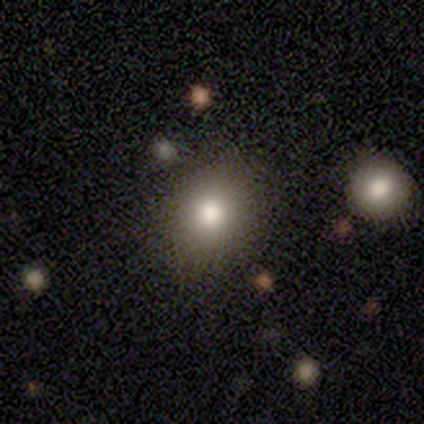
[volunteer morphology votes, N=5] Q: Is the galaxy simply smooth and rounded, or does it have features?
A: smooth — 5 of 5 (100%).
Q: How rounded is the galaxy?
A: round — 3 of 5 (60%).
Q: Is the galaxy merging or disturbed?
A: none — 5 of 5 (100%).